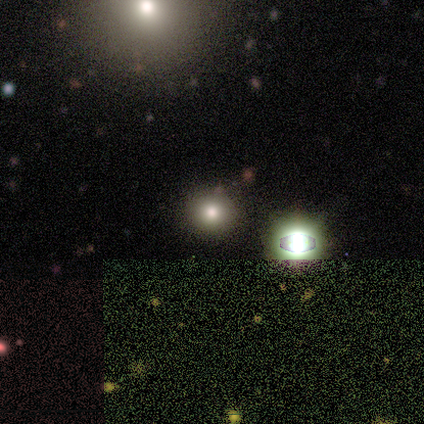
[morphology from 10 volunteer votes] smooth 80%, featured or disk 10%, star or artifact 10%. Down the decision tree: how rounded — round (75%); merging — none (89%).